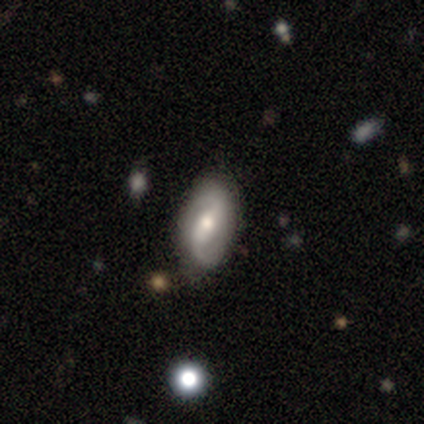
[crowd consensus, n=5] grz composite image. It shows a featured or disk galaxy (80%) with a strong bar (50%, tied with weak), 2 (100%) medium (50%) spiral arms (100%) and a moderate central bulge (75%). Merging: none (80%).